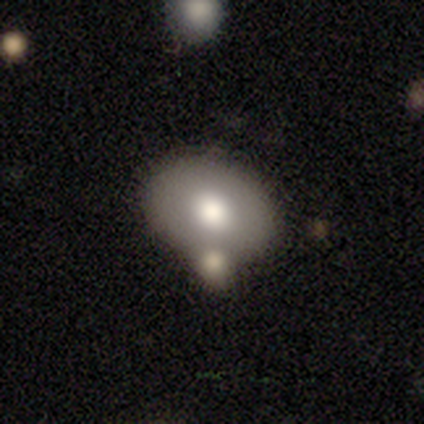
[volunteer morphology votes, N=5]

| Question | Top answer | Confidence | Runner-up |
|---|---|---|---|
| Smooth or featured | smooth | 100% | — |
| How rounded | in between | 100% | — |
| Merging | none | 60% | minor disturbance (40%) |